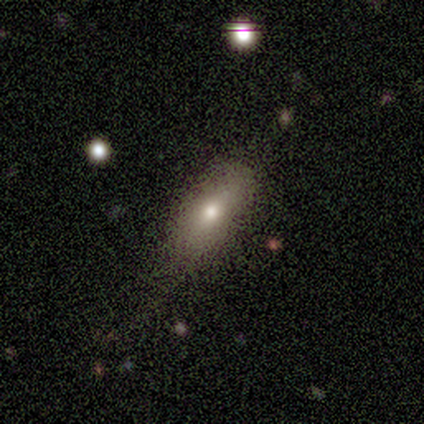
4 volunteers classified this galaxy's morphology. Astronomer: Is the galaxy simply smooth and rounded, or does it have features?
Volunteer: featured or disk — 50%.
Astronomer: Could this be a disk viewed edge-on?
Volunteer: yes — 50%, tied with no at 50%.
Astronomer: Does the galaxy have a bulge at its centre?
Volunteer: rounded — 100%.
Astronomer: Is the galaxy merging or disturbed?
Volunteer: none — 67%.